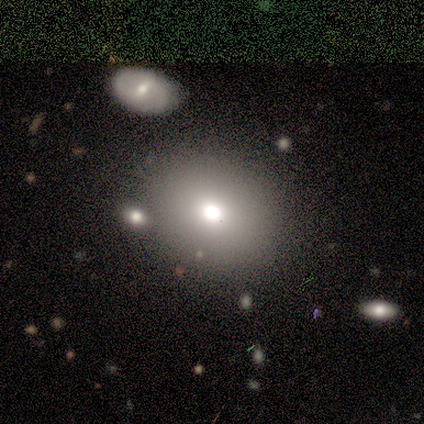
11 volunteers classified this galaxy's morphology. Volunteers were most divided on "how rounded": round: 80%, in between: 20%, cigar-shaped: 0%. More confident: smooth or featured — smooth (91%); merging — none (80%).